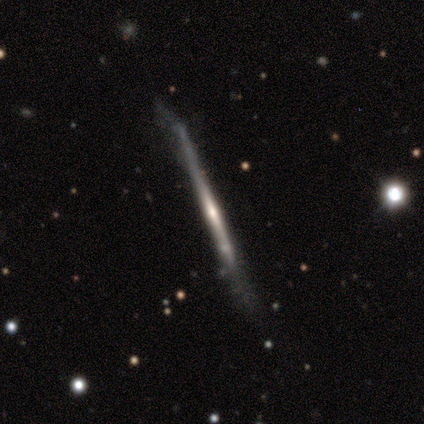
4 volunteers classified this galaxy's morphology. Q: Smooth or featured?
A: smooth (50%); tied with: featured or disk (50%)
Q: How rounded?
A: cigar-shaped (100%)
Q: Merging?
A: none (100%)